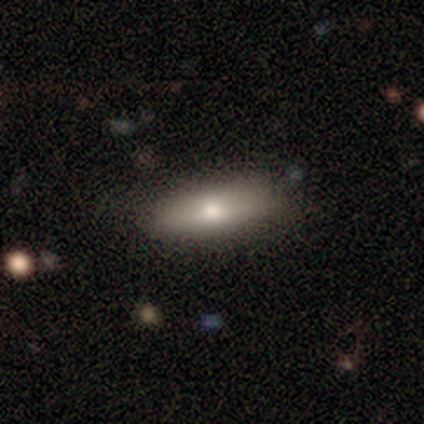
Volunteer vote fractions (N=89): This appears to be a smooth galaxy with no disk features (80%) that is in between round and cigar-shaped (69%). Merging: none (80%).